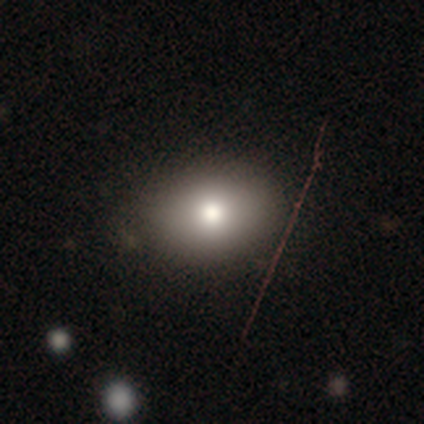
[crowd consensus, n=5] A smooth galaxy with no disk features (60%) that is in between round and cigar-shaped (67%).

Vote fractions:
- Smooth or featured? smooth: 60% / featured or disk: 20% / star or artifact: 20%
- How rounded? in between: 67% / round: 33% / cigar-shaped: 0%
- Merging? none: 100% / minor disturbance: 0% / major disturbance: 0% / merger: 0%